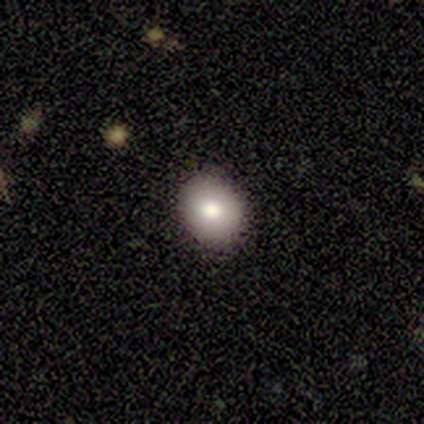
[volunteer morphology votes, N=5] This is clearly a smooth galaxy (100%). How rounded: marginally round (40%, tied with in between). Merging: clearly none (80%).